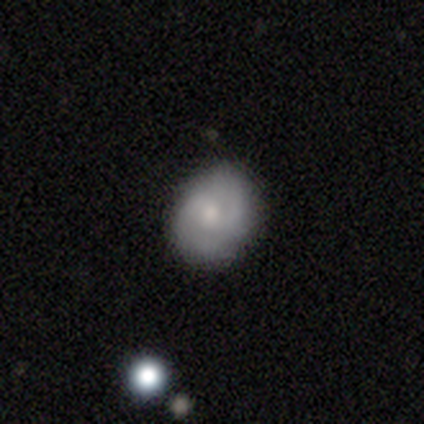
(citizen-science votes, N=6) This is likely a featured or disk galaxy (67%). It is clearly not viewed edge-on (100%). Bar: possibly weak (50%, tied with no). Spiral arm pattern: possibly yes (50%, tied with no). Spiral arm count: possibly 2 (50%, tied with can't tell). Spiral winding: clearly tight (100%). Central bulge: likely moderate (75%). Merging: clearly none (100%).